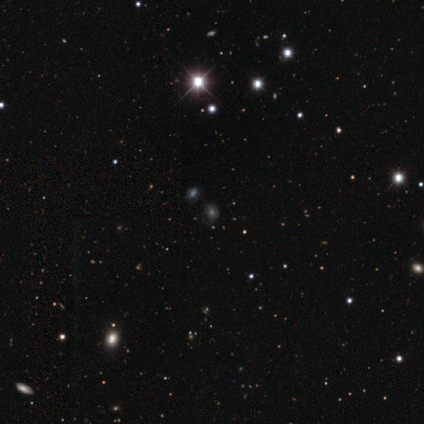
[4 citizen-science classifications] Volunteers were most divided on "smooth or featured" (2-way tie): featured or disk: 50%, star or artifact: 50%, smooth: 0%; "spiral arms" (2-way tie): yes: 50%, no: 50%; "bulge size" (2-way tie): large: 50%, moderate: 50%, dominant: 0%, small: 0%, none: 0%; "merging" (2-way tie): minor disturbance: 50%, merger: 50%, none: 0%, major disturbance: 0%. More confident: edge-on disk — no (100%); bar — no (100%); spiral winding — tight (100%); spiral arm count — 3 (100%).